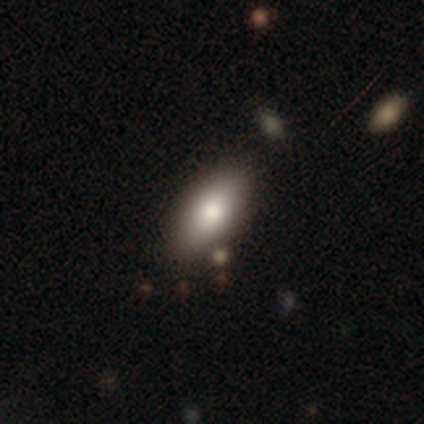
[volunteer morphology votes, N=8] Smooth or featured: smooth — 75% (featured or disk — 25%)
How rounded: in between — 100%
Merging: none — 75% (major disturbance — 12%)